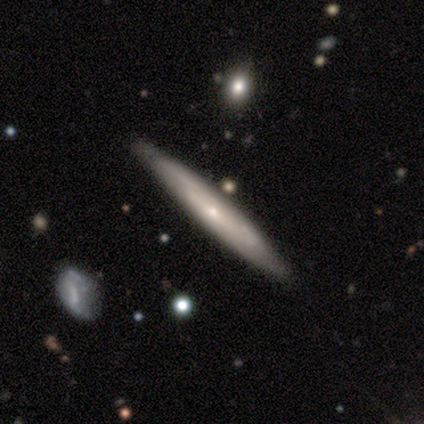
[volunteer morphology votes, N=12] Volunteers were most divided on "smooth or featured": featured or disk: 67%, smooth: 33%, star or artifact: 0%. More confident: edge-on disk — yes (75%); merging — none (75%); edge-on bulge — none (67%).